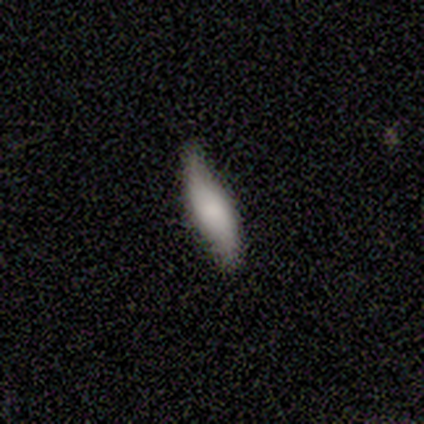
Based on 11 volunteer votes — Overall: featured or disk (55%; star or artifact 36%). Edge-on disk: yes (50%, tied with no). Edge-on bulge: rounded (67%; none 33%). Merging: none (86%).